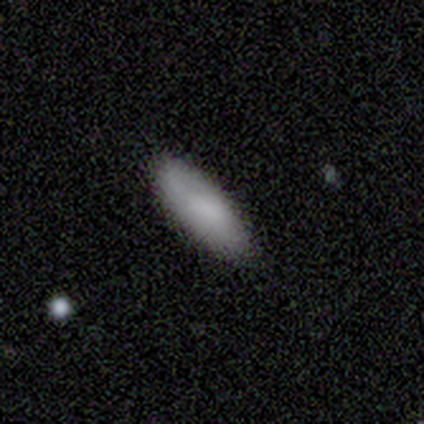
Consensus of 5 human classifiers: smooth_or_featured: smooth (p=0.80) [alt: star or artifact p=0.20]
how_rounded: in between (p=1.00)
merging: none (p=1.00)